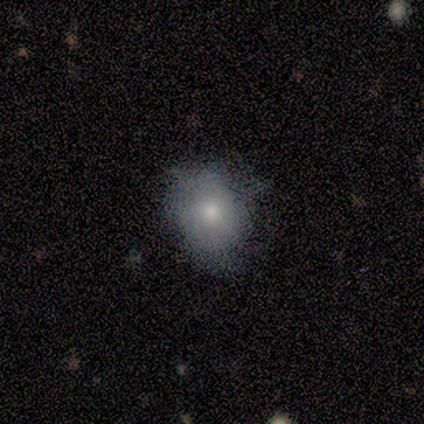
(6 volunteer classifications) Smooth or featured: smooth — 83% (featured or disk — 17%)
How rounded: in between — 80% (round — 20%)
Merging: none — 67% (minor disturbance — 33%)